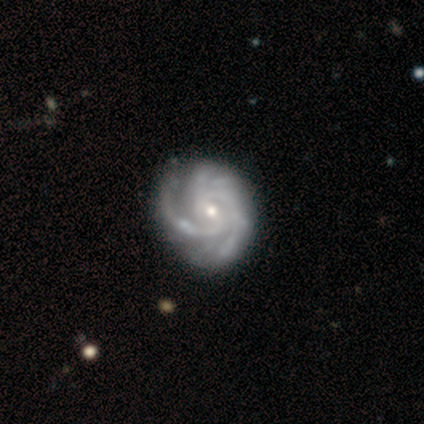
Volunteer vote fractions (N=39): featured or disk 95%, star or artifact 5%, smooth 0%. Down the decision tree: edge-on disk — no (100%); bar — no (59%); spiral arms — yes (100%); spiral arm count — 2 (46%); spiral winding — tight (54%); bulge size — small (65%); merging — none (46%).